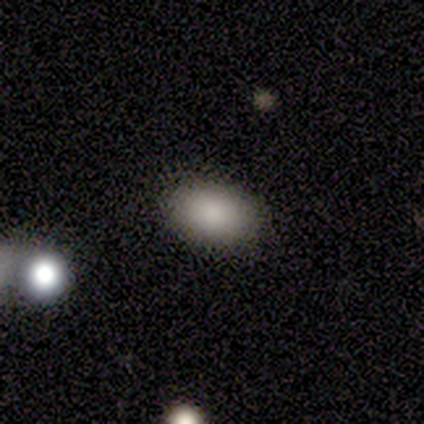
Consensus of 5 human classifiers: Smooth or featured? smooth (80%)
How rounded? in between (75%)
Merging? none (50%)